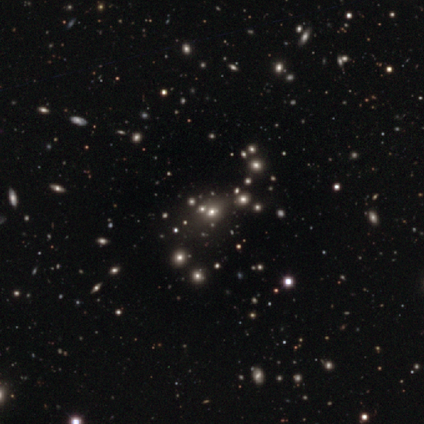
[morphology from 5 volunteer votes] Smooth or featured: star or artifact — 100%